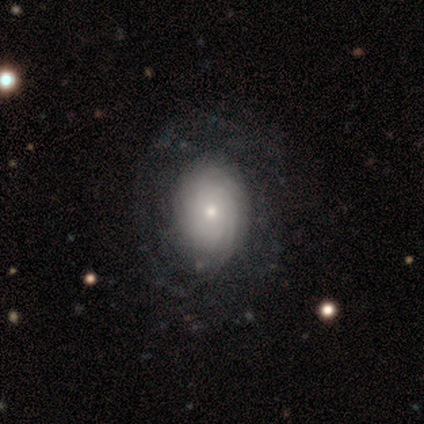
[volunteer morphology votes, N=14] A featured or disk galaxy (57%) with no bar (100%), more than 4 (57%) tight (86%) spiral arms (88%) and a small central bulge (50%). Merging: none (71%).